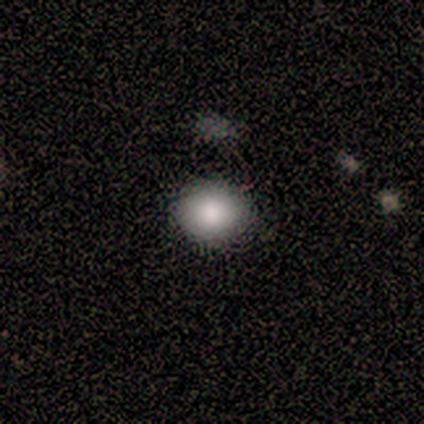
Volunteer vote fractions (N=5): Volunteers were most divided on "how rounded": round: 60%, in between: 40%, cigar-shaped: 0%. More confident: smooth or featured — smooth (100%); merging — none (60%).